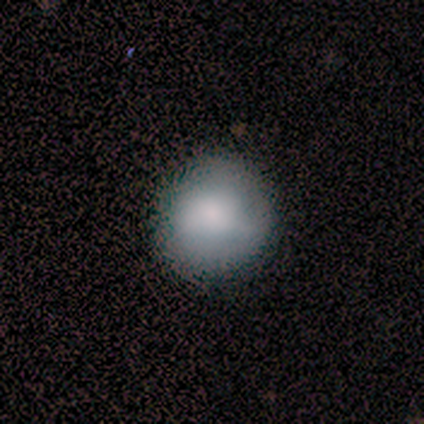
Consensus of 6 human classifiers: smooth 100%, featured or disk 0%, star or artifact 0%. Down the decision tree: how rounded — round (83%); merging — none (100%).